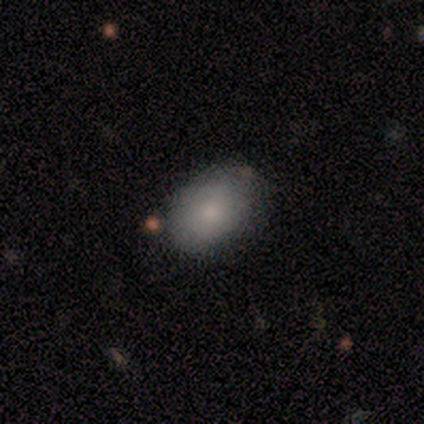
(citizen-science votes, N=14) smooth_or_featured: smooth (p=1.00)
how_rounded: in between (p=0.79) [alt: round p=0.21]
merging: none (p=0.79) [alt: minor disturbance p=0.21]